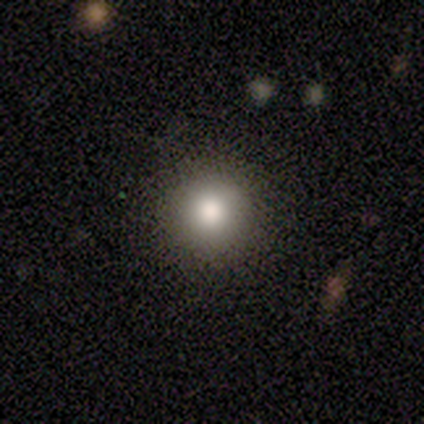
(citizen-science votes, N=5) smooth_or_featured: smooth (p=1.00)
how_rounded: round (p=1.00)
merging: none (p=1.00)